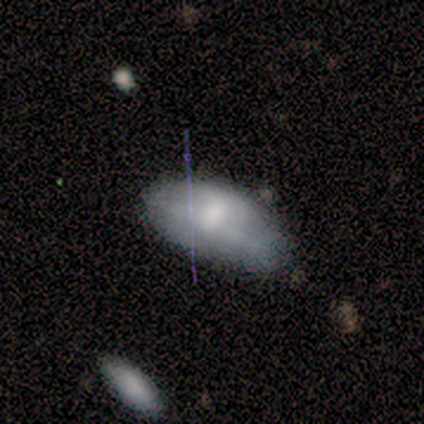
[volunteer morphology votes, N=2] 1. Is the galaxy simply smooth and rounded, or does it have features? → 100% featured or disk, 0% smooth, 0% star or artifact.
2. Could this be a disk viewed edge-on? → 50% yes (tied), 50% no (tied).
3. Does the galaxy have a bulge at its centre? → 100% rounded, 0% boxy, 0% none.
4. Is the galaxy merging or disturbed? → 100% minor disturbance, 0% none, 0% major disturbance, 0% merger.